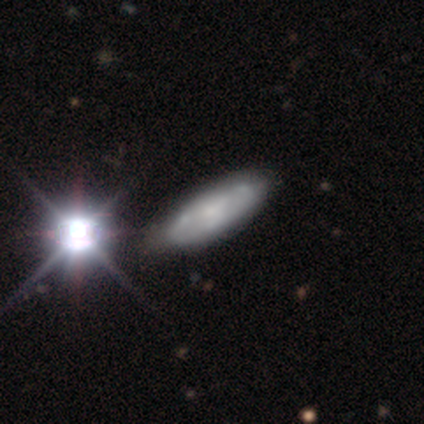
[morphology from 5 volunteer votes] Smooth or featured?
  - featured or disk: 60% *
  - smooth: 20%
  - star or artifact: 20%
Edge-on disk?
  - no: 100% *
  - yes: 0%
Bar?
  - no: 100% *
  - strong: 0%
  - weak: 0%
Spiral arms?
  - yes: 67% *
  - no: 33%
Spiral winding?
  - tight: 50% * (tied)
  - medium: 50% * (tied)
  - loose: 0%
Spiral arm count?
  - 3: 50% * (tied)
  - can't tell: 50% * (tied)
  - 1: 0%
  - 2: 0%
  - 4: 0%
  - more than 4: 0%
Bulge size?
  - small: 100% *
  - dominant: 0%
  - large: 0%
  - moderate: 0%
  - none: 0%
Merging?
  - none: 100% *
  - minor disturbance: 0%
  - major disturbance: 0%
  - merger: 0%